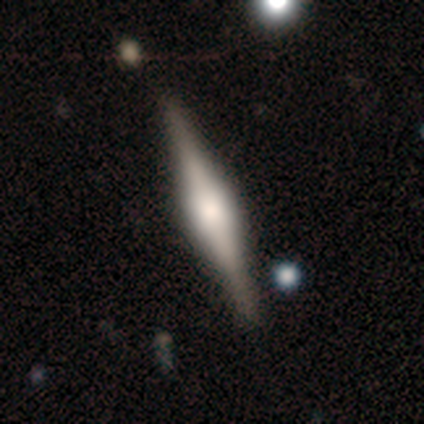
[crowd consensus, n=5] This is clearly a featured or disk galaxy (80%). It is clearly viewed edge-on (100%). Edge-on bulge: likely rounded (75%). Merging: clearly none (100%).